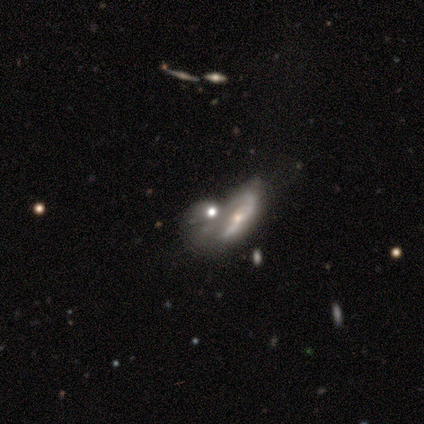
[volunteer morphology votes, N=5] Q: Smooth or featured?
A: featured or disk (100%)
Q: Edge-on disk?
A: no (60%); runner-up: yes (40%)
Q: Bar?
A: no (100%)
Q: Spiral arms?
A: no (67%); runner-up: yes (33%)
Q: Bulge size?
A: small (100%)
Q: Merging?
A: merger (60%); runner-up: major disturbance (40%)